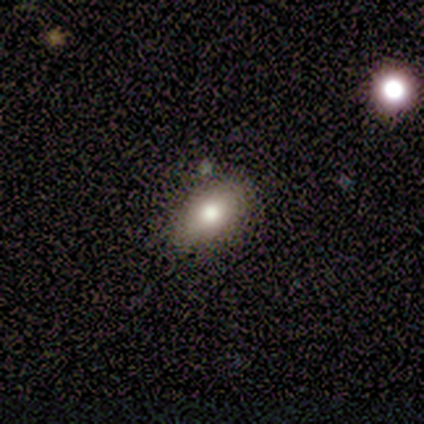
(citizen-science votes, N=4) A smooth galaxy with no disk features (75%) that is in between round and cigar-shaped (100%). Merging: none (75%).